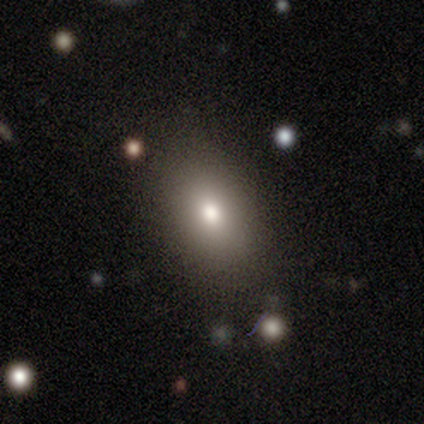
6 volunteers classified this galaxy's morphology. Smooth or featured: smooth — 67% (featured or disk — 17%)
How rounded: in between — 75% (round — 25%)
Merging: none — 80% (major disturbance — 20%)